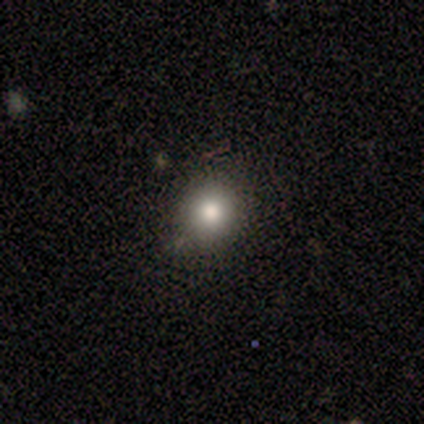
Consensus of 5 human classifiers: Smooth or featured?
  - star or artifact: 60% *
  - smooth: 20%
  - featured or disk: 20%